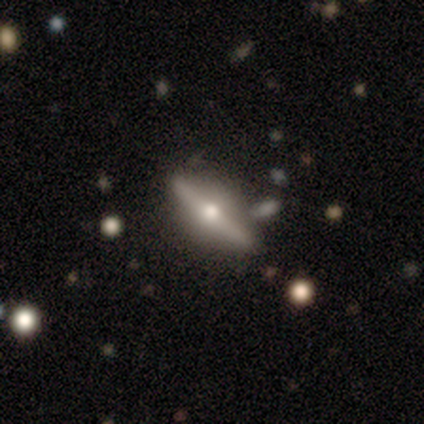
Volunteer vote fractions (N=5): A smooth galaxy with no disk features (60%) that is cigar-shaped (67%).

Vote fractions:
- Smooth or featured? smooth: 60% / featured or disk: 40% / star or artifact: 0%
- How rounded? cigar-shaped: 67% / in between: 33% / round: 0%
- Merging? none: 100% / minor disturbance: 0% / major disturbance: 0% / merger: 0%